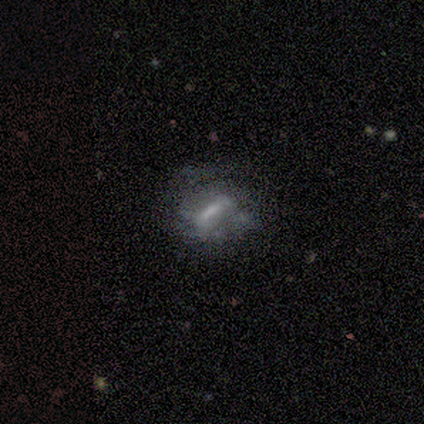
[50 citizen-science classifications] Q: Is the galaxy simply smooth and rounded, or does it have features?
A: featured or disk — 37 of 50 (74%).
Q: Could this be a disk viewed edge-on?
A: no — 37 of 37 (100%).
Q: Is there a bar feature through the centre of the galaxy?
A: strong — 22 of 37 (59%).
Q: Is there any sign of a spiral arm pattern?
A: no — 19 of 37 (51%).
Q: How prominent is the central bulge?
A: none — 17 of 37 (46%).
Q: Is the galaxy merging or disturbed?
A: none — 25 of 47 (53%).